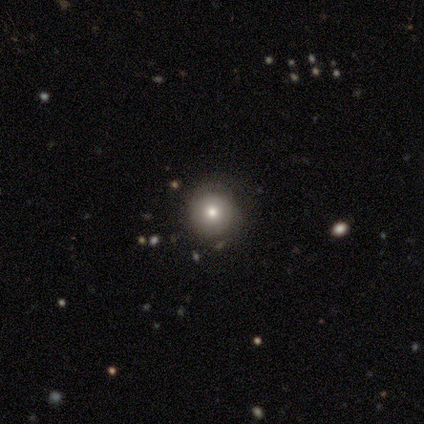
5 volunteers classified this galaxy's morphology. Smooth or featured: featured or disk — 60% (smooth — 20%)
Edge-on disk: no — 100%
Bar: no — 100%
Spiral arms: no — 67% (yes — 33%)
Bulge size: moderate — 67% (none — 33%)
Merging: none — 50% (tied with minor disturbance — 50%)